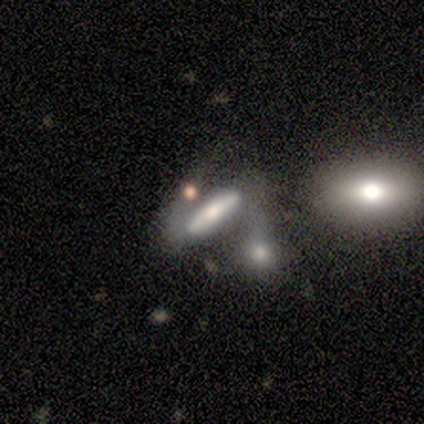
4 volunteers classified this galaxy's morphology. Overall: featured or disk (100%). Edge-on disk: yes (100%). Edge-on bulge: rounded (75%). Merging: merger (50%; minor disturbance 25%).